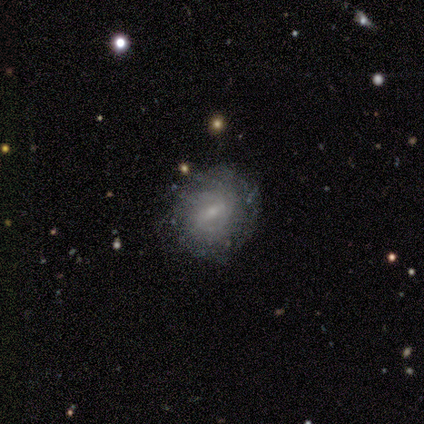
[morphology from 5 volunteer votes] A featured or disk galaxy (80%) with a weak bar (75%), tight (33%, tied with medium and loose) spiral arms (75%) and a small central bulge (75%).

Vote fractions:
- Smooth or featured? featured or disk: 80% / smooth: 20% / star or artifact: 0%
- Edge-on disk? no: 100% / yes: 0%
- Bar? weak: 75% / no: 25% / strong: 0%
- Spiral arms? yes: 75% / no: 25%
- Spiral winding? tight: 33% (tied) / medium: 33% (tied) / loose: 33% (tied)
- Spiral arm count? can't tell: 67% / 2: 33% / 1: 0% / 3: 0% / 4: 0% / more than 4: 0%
- Bulge size? small: 75% / moderate: 25% / dominant: 0% / large: 0% / none: 0%
- Merging? none: 60% / minor disturbance: 20% / merger: 20% / major disturbance: 0%